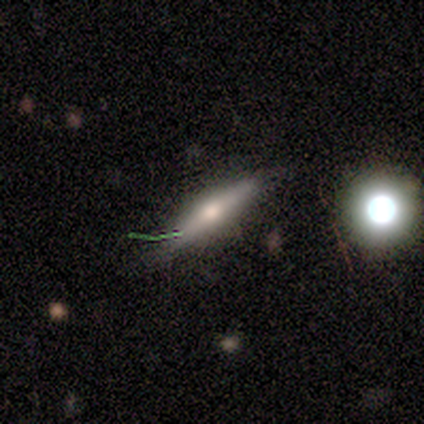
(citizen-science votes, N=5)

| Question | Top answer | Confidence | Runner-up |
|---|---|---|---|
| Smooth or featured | featured or disk | 60% | smooth (20%) |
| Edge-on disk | yes | 100% | — |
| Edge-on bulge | rounded | 100% | — |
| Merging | none | 100% | — |